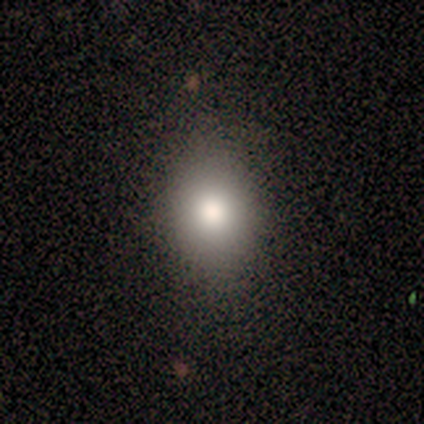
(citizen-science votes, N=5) A smooth galaxy with no disk features (60%) that is round (67%). Merging: none (67%).